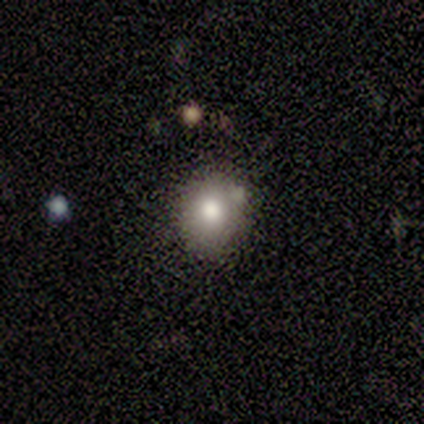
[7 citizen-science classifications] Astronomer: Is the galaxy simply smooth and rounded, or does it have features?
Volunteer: smooth — 86%.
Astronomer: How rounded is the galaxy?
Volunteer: round — 50%, tied with in between at 50%.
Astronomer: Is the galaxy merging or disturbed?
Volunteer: none — 67%.